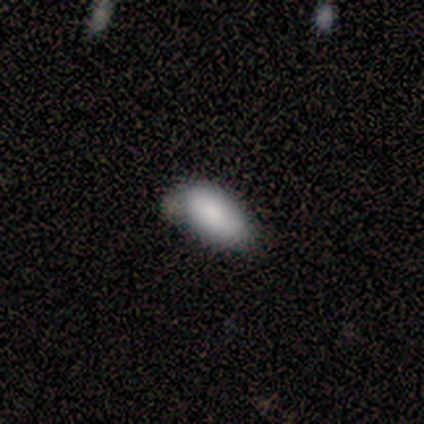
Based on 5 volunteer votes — Overall: smooth (100%). How rounded: in between (100%). Merging: none (60%; minor disturbance 40%).